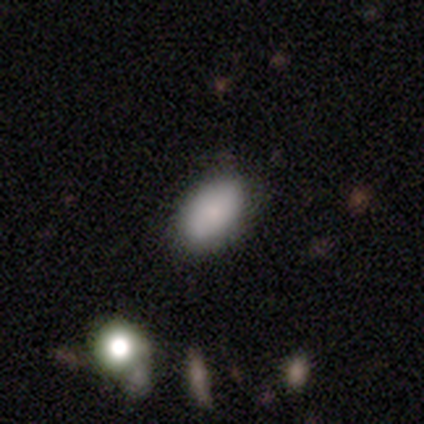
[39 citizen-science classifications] Smooth or featured? smooth (77%)
How rounded? in between (93%)
Merging? none (74%)